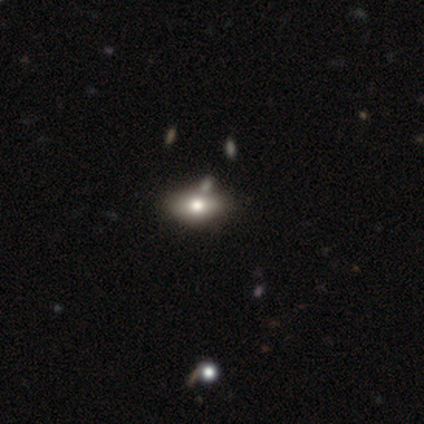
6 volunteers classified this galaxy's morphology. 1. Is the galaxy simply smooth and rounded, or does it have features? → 50% star or artifact, 33% smooth, 17% featured or disk.